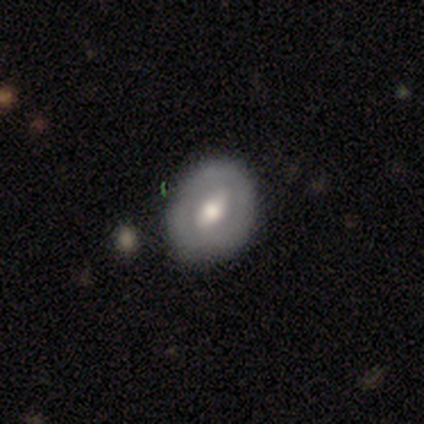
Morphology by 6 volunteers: This appears to be a smooth galaxy with no disk features (50%, tied with featured or disk) that is in between round and cigar-shaped (100%). Merging: none (83%).